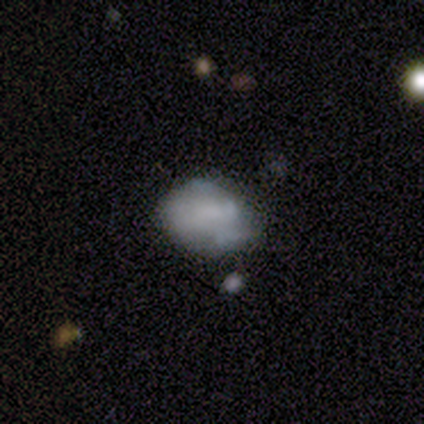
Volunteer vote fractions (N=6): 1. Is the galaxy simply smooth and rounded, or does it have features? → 50% smooth (tied), 50% featured or disk (tied), 0% star or artifact.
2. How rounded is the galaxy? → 67% in between, 33% round, 0% cigar-shaped.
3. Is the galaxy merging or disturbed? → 67% none, 17% minor disturbance, 17% merger, 0% major disturbance.